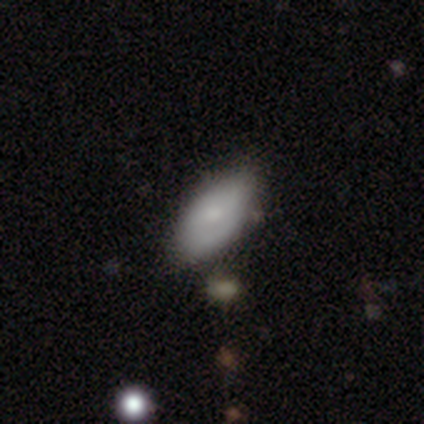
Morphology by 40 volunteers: A smooth galaxy with no disk features (75%) that is in between round and cigar-shaped (100%). Merging: none (71%).